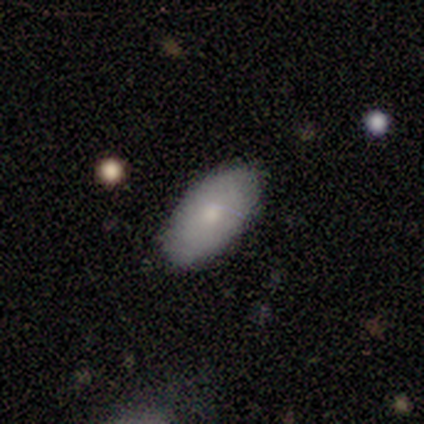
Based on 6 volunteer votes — Q: Smooth or featured?
A: smooth (83%); runner-up: featured or disk (17%)
Q: How rounded?
A: in between (100%)
Q: Merging?
A: none (83%); runner-up: minor disturbance (17%)